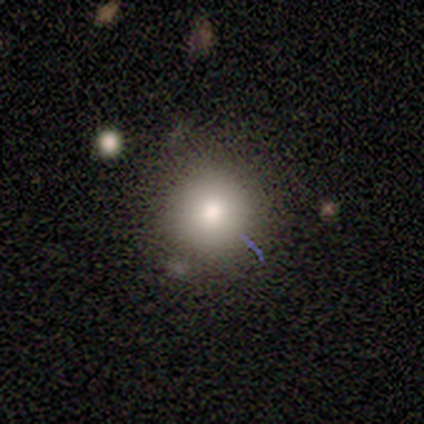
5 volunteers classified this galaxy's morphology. A smooth galaxy with no disk features (80%) that is round (100%).

Vote fractions:
- Smooth or featured? smooth: 80% / star or artifact: 20% / featured or disk: 0%
- How rounded? round: 100% / in between: 0% / cigar-shaped: 0%
- Merging? none: 100% / minor disturbance: 0% / major disturbance: 0% / merger: 0%